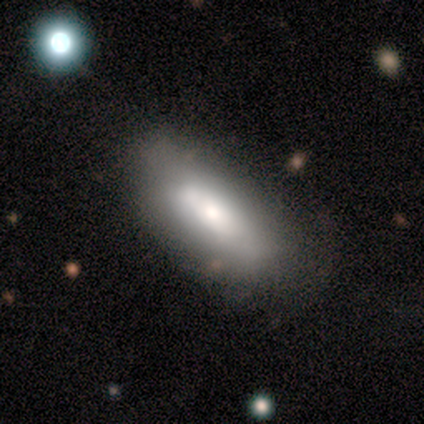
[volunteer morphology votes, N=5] smooth_or_featured: smooth (p=0.80) [alt: featured or disk p=0.20]
how_rounded: in between (p=1.00)
merging: none (p=0.40) [tied with: minor disturbance p=0.40]